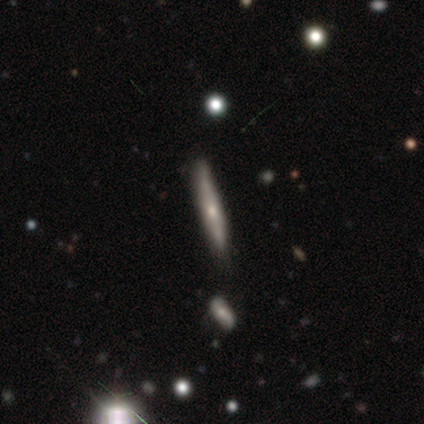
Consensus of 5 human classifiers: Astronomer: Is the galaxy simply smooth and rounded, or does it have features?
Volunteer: featured or disk — 60% (runner-up: smooth, 40%).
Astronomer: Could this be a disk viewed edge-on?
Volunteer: yes — 100%.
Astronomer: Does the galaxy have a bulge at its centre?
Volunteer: rounded — 100%.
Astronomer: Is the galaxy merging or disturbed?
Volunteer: none — 60% (runner-up: minor disturbance, 40%).